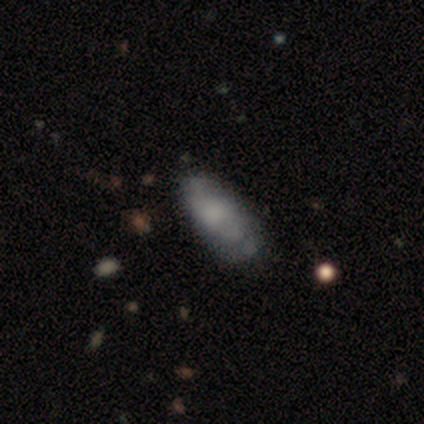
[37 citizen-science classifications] smooth-or-featured: smooth: 65% | featured or disk: 30% | star or artifact: 5%
  how-rounded: in between: 79% | cigar-shaped: 17% | round: 4%
  merging: none: 57% | minor disturbance: 26% | major disturbance: 17% | merger: 0%